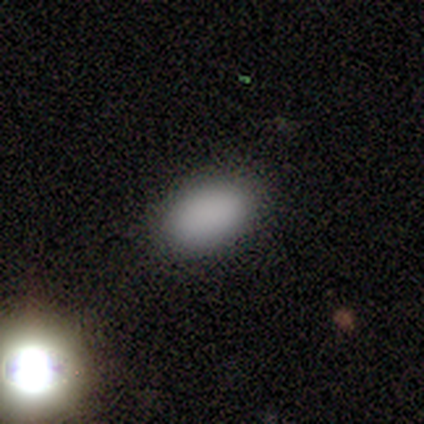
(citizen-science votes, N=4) This is clearly a smooth galaxy (100%). How rounded: clearly in between (100%). Merging: likely none (75%).